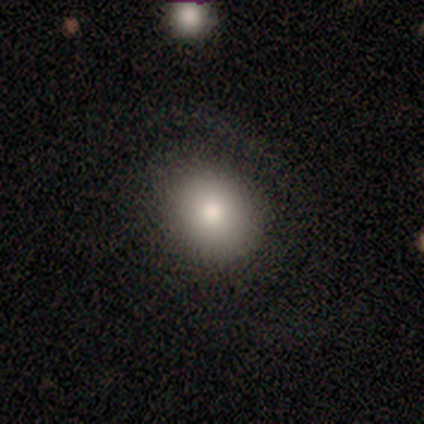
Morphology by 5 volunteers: smooth_or_featured: smooth (p=0.60) [alt: featured or disk p=0.20]
how_rounded: round (p=1.00)
merging: none (p=0.75) [alt: minor disturbance p=0.25]